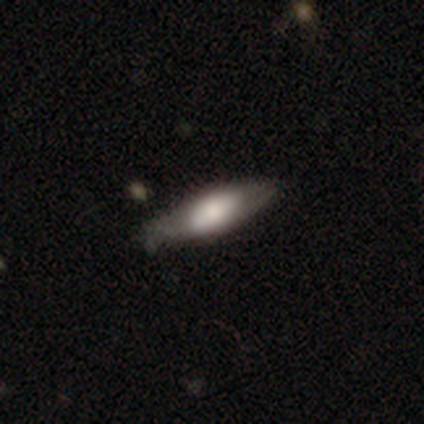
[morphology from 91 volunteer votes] type=smooth (65%); roundness=cigar-shaped (51%); merging=none (69%).